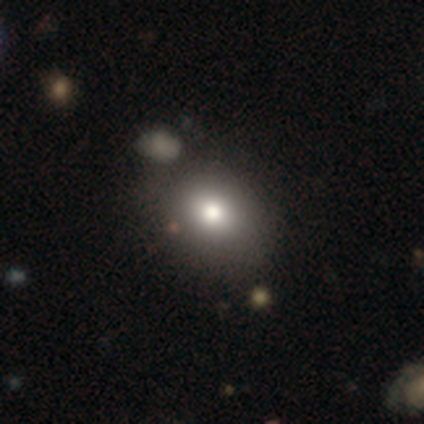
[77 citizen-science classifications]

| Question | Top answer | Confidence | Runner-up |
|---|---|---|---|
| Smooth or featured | smooth | 78% | featured or disk (12%) |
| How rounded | round | 50% | tied: in between (50%) |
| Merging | none | 38% | merger (14%) |